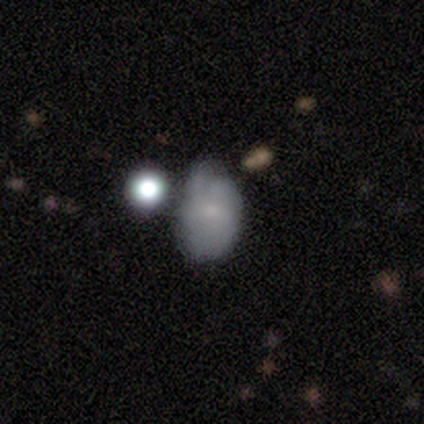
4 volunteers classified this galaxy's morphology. Smooth or featured? 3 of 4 (75%) said smooth. How rounded? 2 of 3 (67%) said in between. Merging? 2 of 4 (50%) said none.